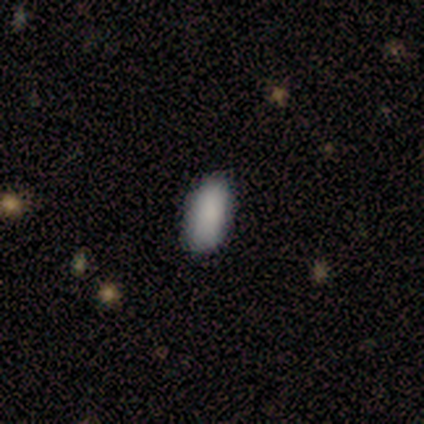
smooth 80%, featured or disk 20%, star or artifact 0%. Down the decision tree: how rounded — in between (75%); merging — none (100%).